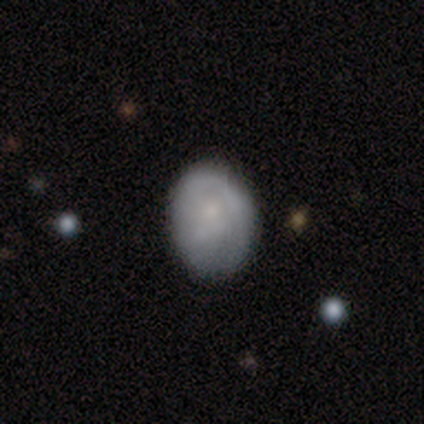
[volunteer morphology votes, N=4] Overall: smooth (100%). How rounded: round (50%, tied with in between). Merging: none (50%, tied with minor disturbance).